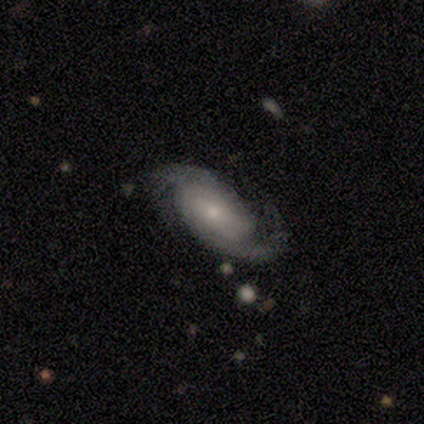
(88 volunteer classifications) featured or disk 89%, smooth 10%, star or artifact 1%. Down the decision tree: edge-on disk — no (92%); bar — no (60%); spiral arms — yes (96%); spiral arm count — 2 (88%); spiral winding — tight (51%); bulge size — small (79%); merging — none (74%).